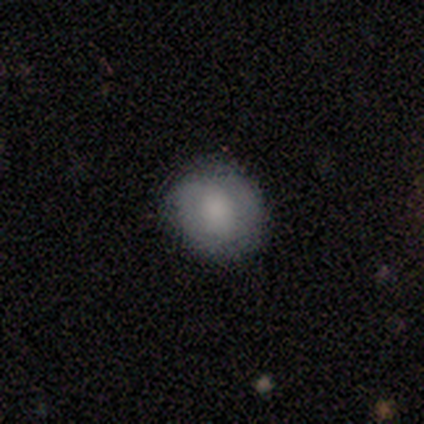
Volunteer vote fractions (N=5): smooth-or-featured: smooth: 80% | featured or disk: 20% | star or artifact: 0%
  how-rounded: round: 75% | in between: 25% | cigar-shaped: 0%
  merging: none: 80% | minor disturbance: 20% | major disturbance: 0% | merger: 0%